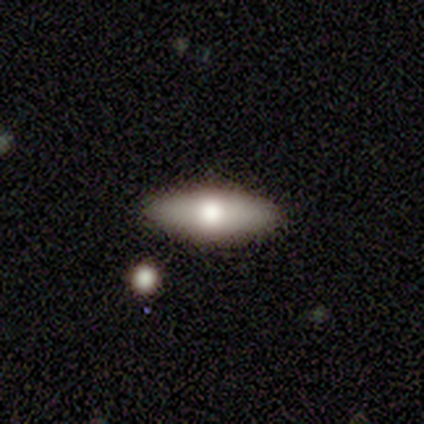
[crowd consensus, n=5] Volunteers were most divided on "smooth or featured": smooth: 80%, featured or disk: 20%, star or artifact: 0%. More confident: how rounded — in between (100%); merging — none (100%).